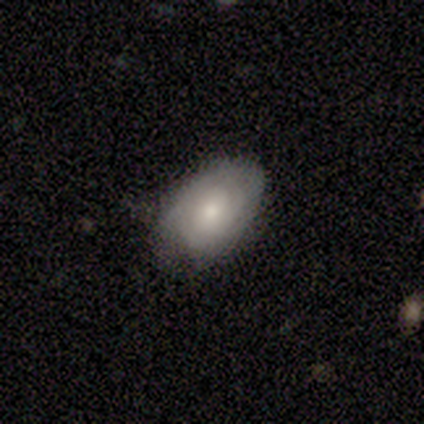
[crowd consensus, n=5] Overall: featured or disk (60%; smooth 40%). Edge-on disk: no (100%). Bar: no (100%). Spiral arms: yes (100%). Spiral arm count: 2 (67%; can't tell 33%). Spiral winding: tight (100%). Bulge size: moderate (67%; small 33%). Merging: none (80%).